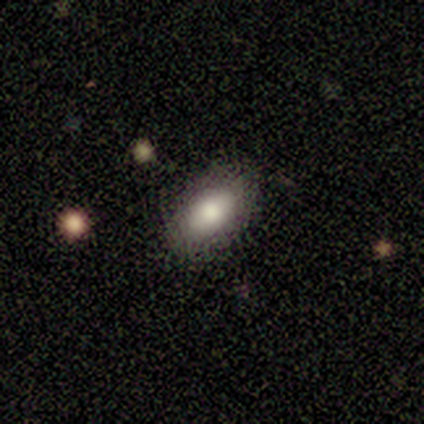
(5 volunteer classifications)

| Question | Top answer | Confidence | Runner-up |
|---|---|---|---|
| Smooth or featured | featured or disk | 60% | smooth (40%) |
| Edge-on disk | no | 100% | — |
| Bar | no | 100% | — |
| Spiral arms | no | 100% | — |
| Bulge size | large | 33% | tied: moderate (33%), small (33%) |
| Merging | none | 80% | major disturbance (20%) |